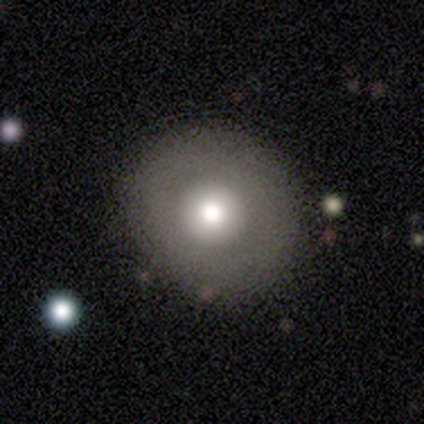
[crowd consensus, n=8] Morphology: type=smooth (75%); roundness=round (83%); merging=none (100%).